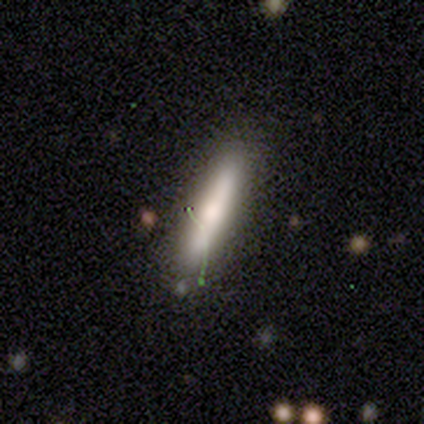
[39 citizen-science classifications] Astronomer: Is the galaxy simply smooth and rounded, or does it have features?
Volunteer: smooth — 62%.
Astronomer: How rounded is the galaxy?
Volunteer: cigar-shaped — 96%.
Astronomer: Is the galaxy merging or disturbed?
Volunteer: none — 84%.